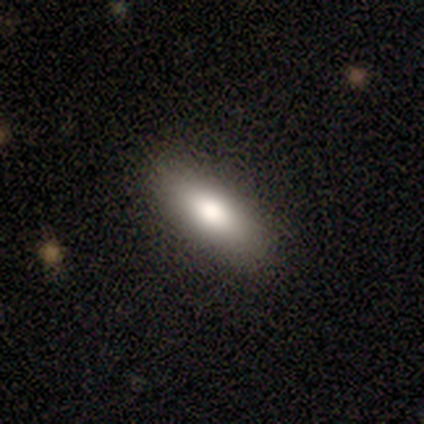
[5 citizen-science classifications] Smooth or featured: smooth — 80% (featured or disk — 20%)
How rounded: cigar-shaped — 75% (in between — 25%)
Merging: none — 100%